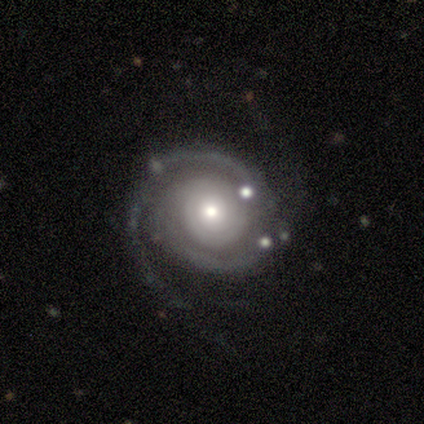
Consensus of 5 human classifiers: Smooth or featured? 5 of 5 (100%) said featured or disk. Edge-on disk? 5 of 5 (100%) said no. Bar? 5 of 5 (100%) said no. Spiral arms? 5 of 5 (100%) said yes. Spiral winding? 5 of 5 (100%) said tight. Spiral arm count? 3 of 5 (60%) said 2. Bulge size? 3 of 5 (60%) said moderate. Merging? 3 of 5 (60%) said none.